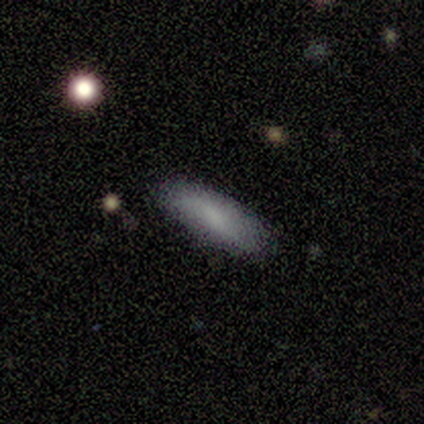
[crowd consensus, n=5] Smooth or featured?
  - smooth: 80% *
  - featured or disk: 20%
  - star or artifact: 0%
How rounded?
  - in between: 100% *
  - round: 0%
  - cigar-shaped: 0%
Merging?
  - none: 80% *
  - minor disturbance: 20%
  - major disturbance: 0%
  - merger: 0%